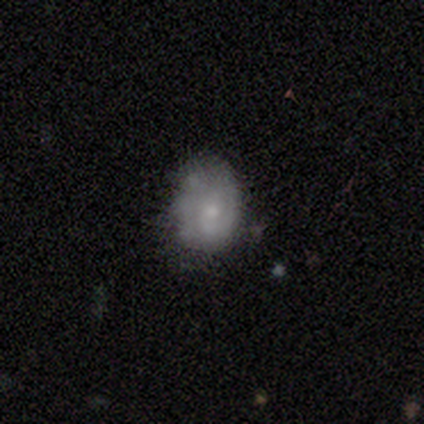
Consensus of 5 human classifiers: A smooth galaxy with no disk features (60%) that is in between round and cigar-shaped (67%). Merging: none (60%).